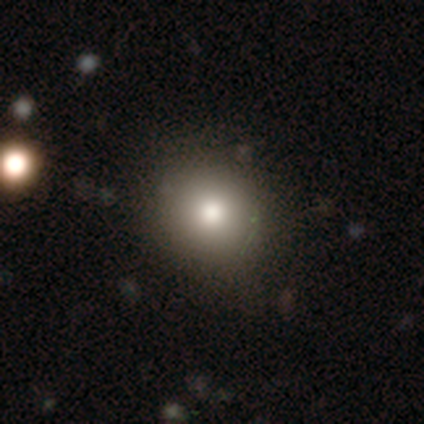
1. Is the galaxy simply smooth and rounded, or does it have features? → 78% smooth, 15% star or artifact, 7% featured or disk.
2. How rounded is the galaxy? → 94% round, 6% in between, 0% cigar-shaped.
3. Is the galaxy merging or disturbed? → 71% none, 6% merger, 0% minor disturbance, 0% major disturbance.